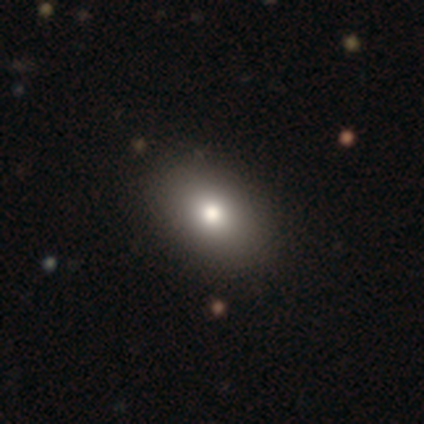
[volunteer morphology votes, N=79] smooth_or_featured: smooth (p=0.86) [alt: featured or disk p=0.11]
how_rounded: in between (p=0.81) [alt: round p=0.18]
merging: none (p=0.48) [alt: minor disturbance p=0.03]